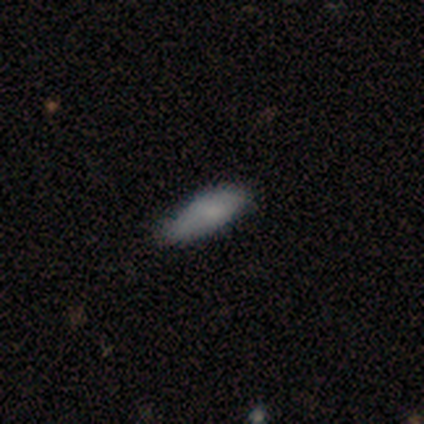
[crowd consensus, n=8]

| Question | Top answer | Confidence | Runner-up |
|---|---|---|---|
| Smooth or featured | smooth | 100% | — |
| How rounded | in between | 62% | cigar-shaped (38%) |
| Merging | none | 75% | minor disturbance (25%) |